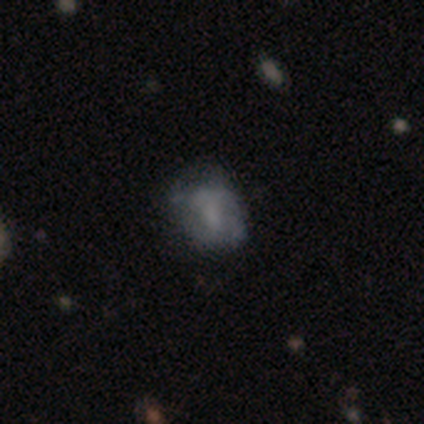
smooth-or-featured: featured or disk: 67% | smooth: 33% | star or artifact: 0%
  disk-edge-on: no: 100% | yes: 0%
    bar: weak: 50% (tied) | no: 50% (tied) | strong: 0%
    has-spiral-arms: yes: 50% (tied) | no: 50% (tied)
      spiral-winding: loose: 100% | tight: 0% | medium: 0%
      spiral-arm-count: can't tell: 100% | 1: 0% | 2: 0% | 3: 0% | 4: 0% | more than 4: 0%
    bulge-size: none: 100% | dominant: 0% | large: 0% | moderate: 0% | small: 0%
  merging: minor disturbance: 67% | none: 33% | major disturbance: 0% | merger: 0%